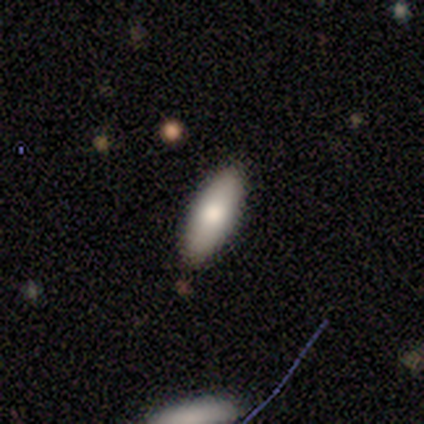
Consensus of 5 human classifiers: Smooth or featured?
  - smooth: 60% *
  - featured or disk: 20%
  - star or artifact: 20%
How rounded?
  - in between: 67% *
  - cigar-shaped: 33%
  - round: 0%
Merging?
  - none: 100% *
  - minor disturbance: 0%
  - major disturbance: 0%
  - merger: 0%